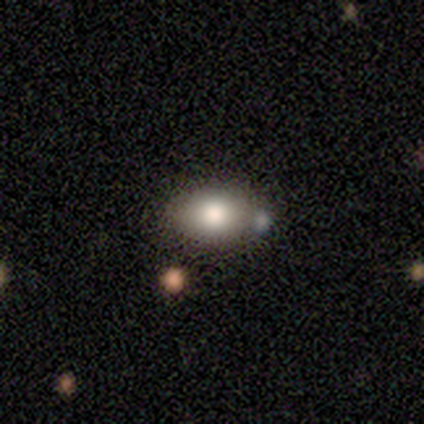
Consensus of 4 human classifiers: A smooth galaxy with no disk features (75%) that is in between round and cigar-shaped (100%).

Vote fractions:
- Smooth or featured? smooth: 75% / featured or disk: 25% / star or artifact: 0%
- How rounded? in between: 100% / round: 0% / cigar-shaped: 0%
- Merging? none: 100% / minor disturbance: 0% / major disturbance: 0% / merger: 0%